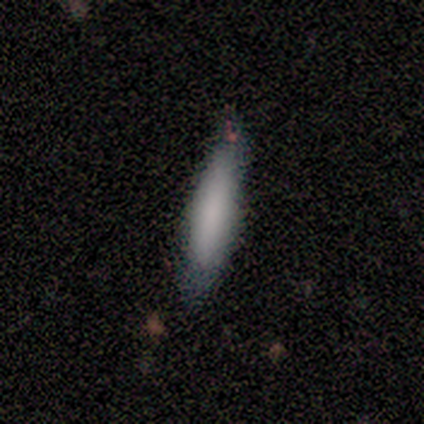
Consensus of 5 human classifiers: Smooth or featured? 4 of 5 (80%) said smooth. How rounded? 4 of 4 (100%) said cigar-shaped. Merging? 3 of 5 (60%) said minor disturbance.